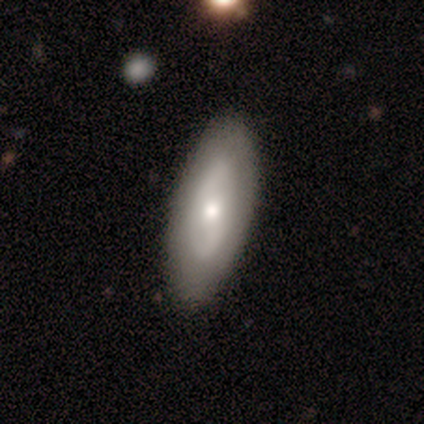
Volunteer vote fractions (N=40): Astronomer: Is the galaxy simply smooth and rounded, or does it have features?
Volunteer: featured or disk — 60% (runner-up: smooth, 38%).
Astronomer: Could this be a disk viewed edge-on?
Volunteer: no — 88%.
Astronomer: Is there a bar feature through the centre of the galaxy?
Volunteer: no — 86%.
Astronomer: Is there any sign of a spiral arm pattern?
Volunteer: yes — 62% (runner-up: no, 38%).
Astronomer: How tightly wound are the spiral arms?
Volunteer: tight — 46% (runner-up: medium, 31%).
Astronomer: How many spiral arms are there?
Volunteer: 2 — 62%.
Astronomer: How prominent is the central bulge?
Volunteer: moderate — 67%.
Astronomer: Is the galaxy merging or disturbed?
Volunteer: none — 56%.